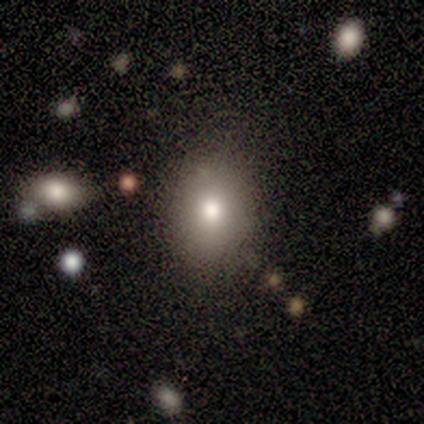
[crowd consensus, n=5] Smooth or featured?
  - smooth: 100% *
  - featured or disk: 0%
  - star or artifact: 0%
How rounded?
  - in between: 100% *
  - round: 0%
  - cigar-shaped: 0%
Merging?
  - none: 80% *
  - minor disturbance: 20%
  - major disturbance: 0%
  - merger: 0%